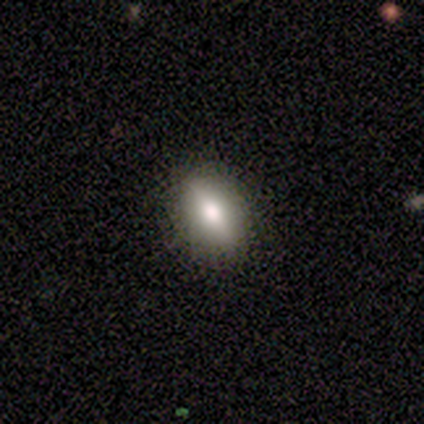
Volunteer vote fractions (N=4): smooth_or_featured: smooth (p=1.00)
how_rounded: in between (p=1.00)
merging: none (p=0.50) [tied with: minor disturbance p=0.50]